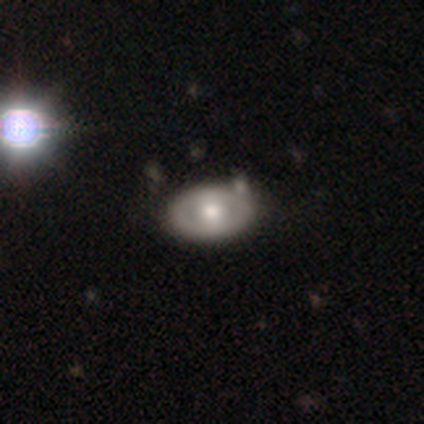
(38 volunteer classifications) Smooth or featured? 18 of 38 (47%, tied with featured or disk) said smooth. How rounded? 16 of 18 (89%) said in between. Merging? 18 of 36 (50%) said none.